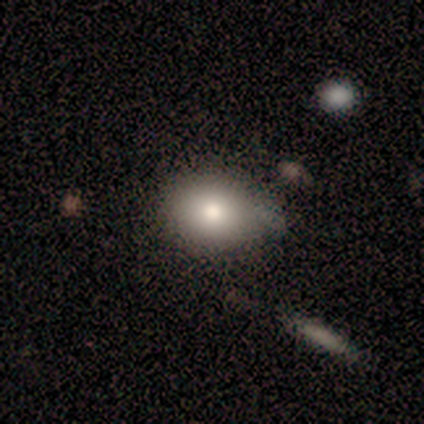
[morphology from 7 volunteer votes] A smooth galaxy with no disk features (86%) that is in between round and cigar-shaped (67%).

Vote fractions:
- Smooth or featured? smooth: 86% / featured or disk: 14% / star or artifact: 0%
- How rounded? in between: 67% / round: 33% / cigar-shaped: 0%
- Merging? none: 43% (tied) / minor disturbance: 43% (tied) / merger: 14% / major disturbance: 0%